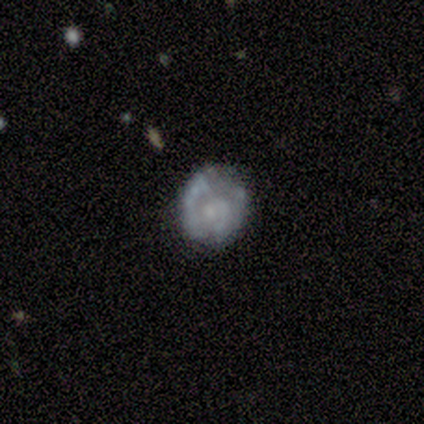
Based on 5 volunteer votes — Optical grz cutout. It shows a featured or disk galaxy (100%) with no bar (100%), 2 (100%) tight (50%, tied with loose) spiral arms (80%) and no central bulge (60%). Merging: none (60%).